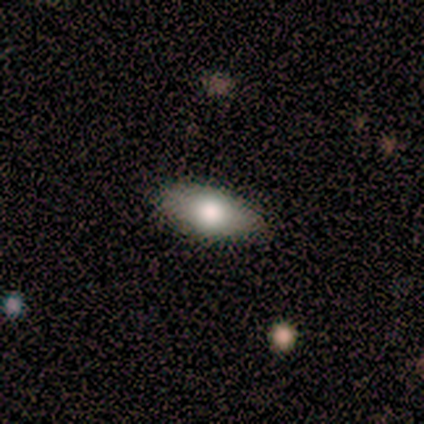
Smooth or featured? smooth (100%)
How rounded? in between (100%)
Merging? none (75%)